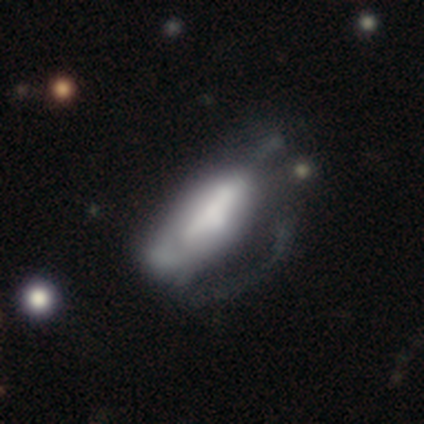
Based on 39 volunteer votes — smooth-or-featured: featured or disk: 59% | smooth: 41% | star or artifact: 0%
  disk-edge-on: no: 74% | yes: 26%
    bar: strong: 47% | no: 41% | weak: 12%
    has-spiral-arms: no: 71% | yes: 29%
    bulge-size: large: 35% | none: 29% | moderate: 18% | dominant: 12% | small: 6%
  merging: major disturbance: 54% | minor disturbance: 21% | none: 18% | merger: 8%